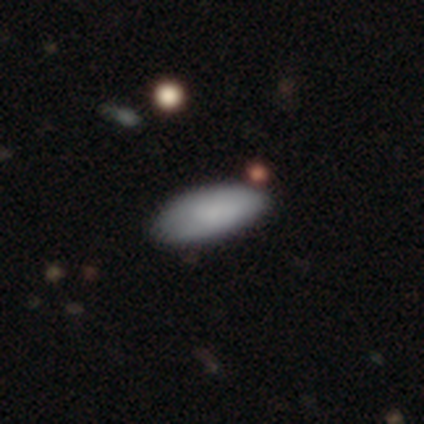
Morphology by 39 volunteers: Smooth or featured?
  - smooth: 82% *
  - star or artifact: 10%
  - featured or disk: 8%
How rounded?
  - in between: 84% *
  - cigar-shaped: 16%
  - round: 0%
Merging?
  - none: 89% *
  - minor disturbance: 11%
  - major disturbance: 0%
  - merger: 0%